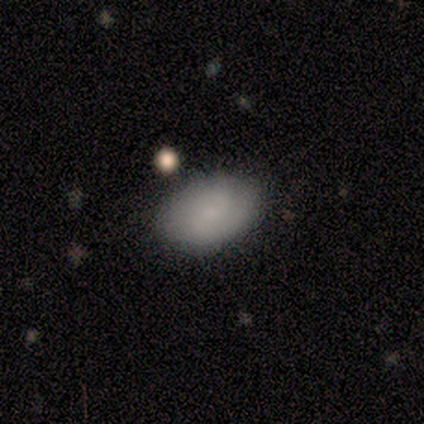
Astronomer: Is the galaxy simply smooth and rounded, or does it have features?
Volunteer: smooth — 75%.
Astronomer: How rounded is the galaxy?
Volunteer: in between — 100%.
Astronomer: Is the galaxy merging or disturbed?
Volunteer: none — 75%.